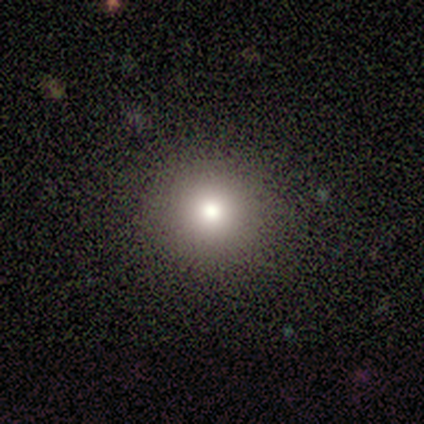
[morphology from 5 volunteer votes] Overall: smooth (80%). How rounded: round (100%). Merging: none (50%; minor disturbance 25%).